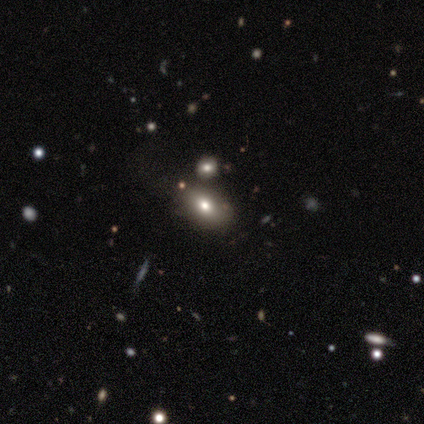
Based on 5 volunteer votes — Q: Smooth or featured?
A: smooth (60%); runner-up: star or artifact (40%)
Q: How rounded?
A: round (67%); runner-up: in between (33%)
Q: Merging?
A: none (100%)